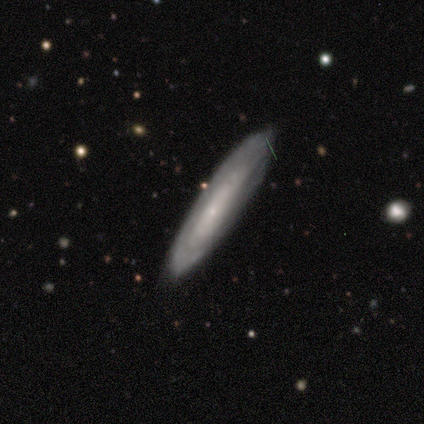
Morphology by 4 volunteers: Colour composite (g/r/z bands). It shows a featured or disk galaxy (100%) viewed edge-on (50%, tied with no) with no central bulge (100%). Merging: none (100%).